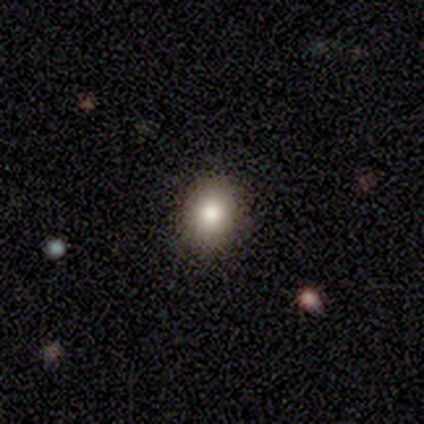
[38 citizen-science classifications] smooth_or_featured: smooth (p=0.61) [alt: star or artifact p=0.26]
how_rounded: in between (p=0.57) [alt: round p=0.43]
merging: none (p=0.93) [alt: minor disturbance p=0.07]